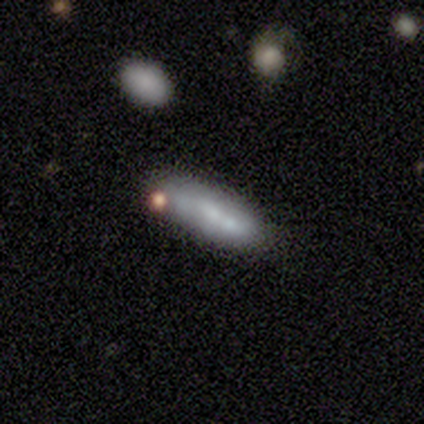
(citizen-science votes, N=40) This appears to be a smooth galaxy with no disk features (57%) that is cigar-shaped (61%). Merging: none (54%).